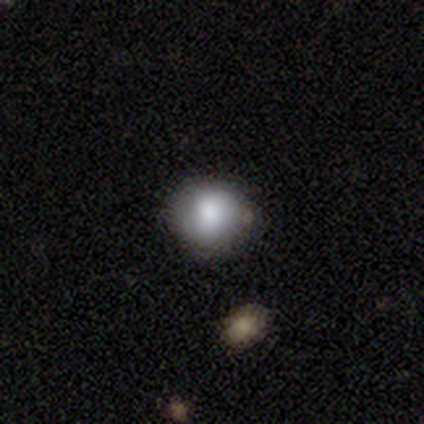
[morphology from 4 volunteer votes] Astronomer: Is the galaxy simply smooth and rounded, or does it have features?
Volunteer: smooth — 100%.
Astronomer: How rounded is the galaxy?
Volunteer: round — 100%.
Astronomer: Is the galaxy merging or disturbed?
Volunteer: none — 75%.